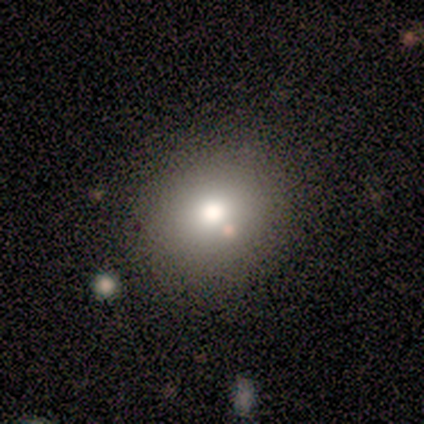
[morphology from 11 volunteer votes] smooth-or-featured: smooth: 73% | star or artifact: 18% | featured or disk: 9%
  how-rounded: round: 88% | in between: 12% | cigar-shaped: 0%
  merging: none: 67% | minor disturbance: 11% | major disturbance: 11% | merger: 11%